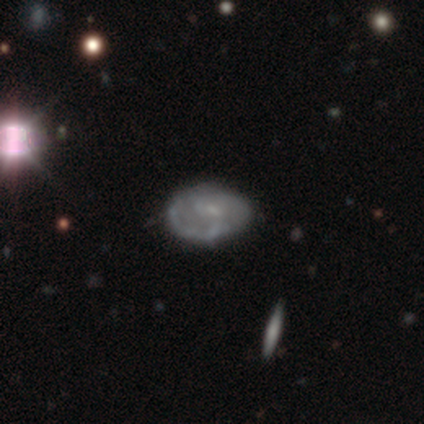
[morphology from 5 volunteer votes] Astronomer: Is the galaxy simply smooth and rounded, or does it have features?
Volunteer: smooth — 60% (runner-up: featured or disk, 40%).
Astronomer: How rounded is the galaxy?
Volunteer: in between — 100%.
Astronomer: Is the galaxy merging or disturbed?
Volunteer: none — 60%.